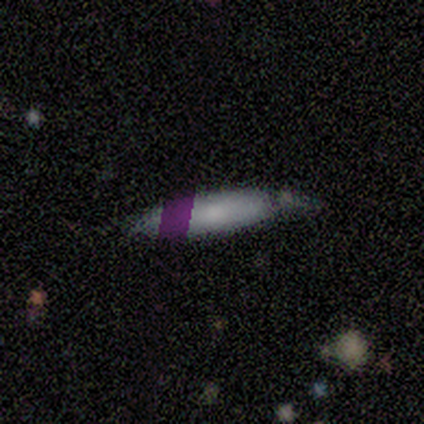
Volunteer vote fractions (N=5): Volunteers were most divided on "merging": none: 50%, minor disturbance: 25%, major disturbance: 25%, merger: 0%. More confident: how rounded — cigar-shaped (100%); smooth or featured — smooth (60%).